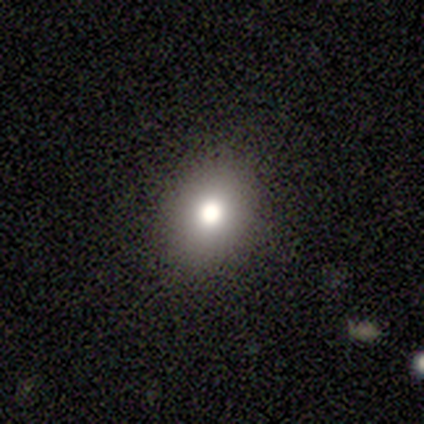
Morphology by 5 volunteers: smooth_or_featured: smooth (p=0.60) [alt: featured or disk p=0.20]
how_rounded: round (p=0.67) [alt: in between p=0.33]
merging: none (p=0.50) [alt: minor disturbance p=0.25]